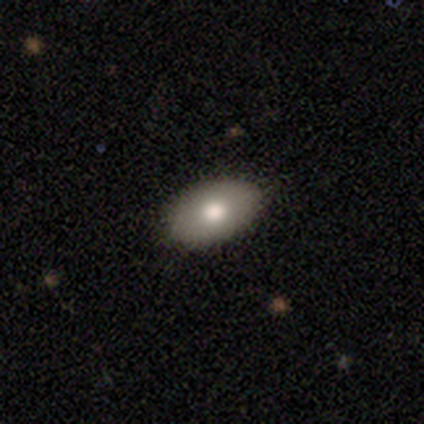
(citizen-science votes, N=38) Q: Smooth or featured?
A: smooth (71%); runner-up: featured or disk (21%)
Q: How rounded?
A: in between (89%); runner-up: round (7%)
Q: Merging?
A: none (89%); runner-up: minor disturbance (6%)